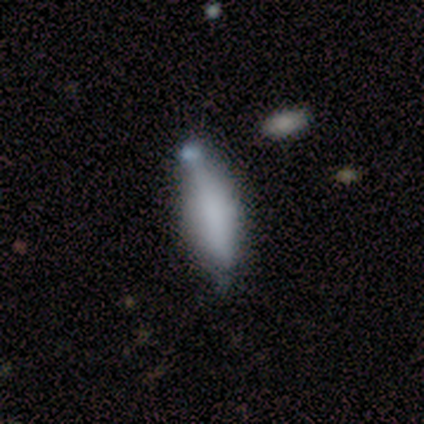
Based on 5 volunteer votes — This is clearly a smooth galaxy (80%). How rounded: likely in between (75%). Merging: likely none (60%).